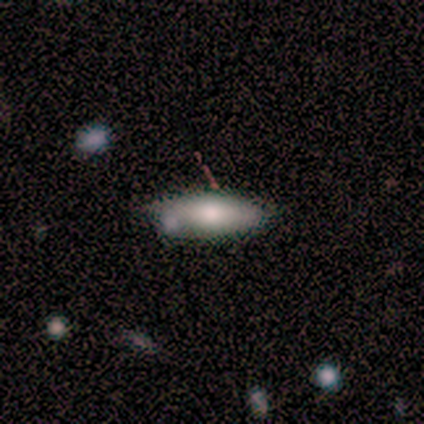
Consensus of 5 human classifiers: Smooth or featured?
  - smooth: 80% *
  - featured or disk: 20%
  - star or artifact: 0%
How rounded?
  - cigar-shaped: 75% *
  - in between: 25%
  - round: 0%
Merging?
  - none: 80% *
  - minor disturbance: 20%
  - major disturbance: 0%
  - merger: 0%